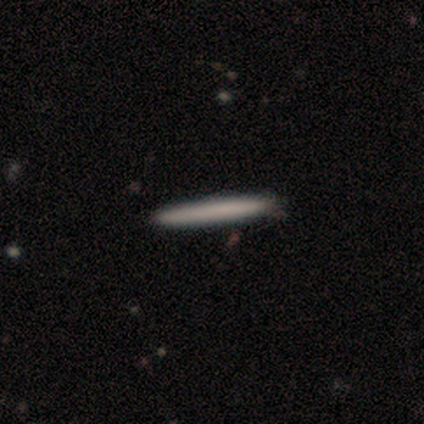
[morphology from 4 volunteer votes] Smooth or featured? smooth (75%)
How rounded? cigar-shaped (100%)
Merging? none (100%)